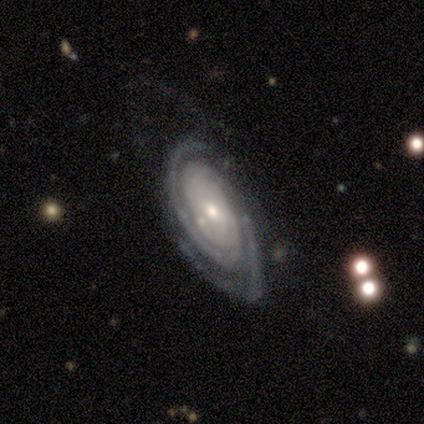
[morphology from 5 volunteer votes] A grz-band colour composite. It shows a featured or disk galaxy (80%) with no bar (100%), 2 (67%) tight (67%) spiral arms (75%) and a moderate central bulge (75%). Merging: minor disturbance (40%, tied with major disturbance).